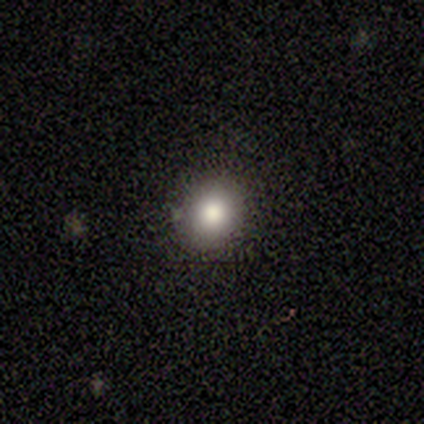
A smooth galaxy with no disk features (75%) that is round (80%). Merging: none (91%).